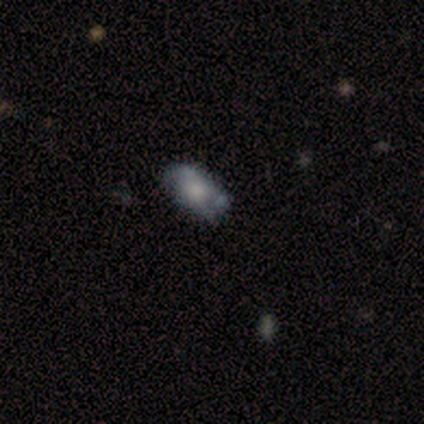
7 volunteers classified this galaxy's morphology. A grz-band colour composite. It shows a smooth galaxy with no disk features (57%) that is in between round and cigar-shaped (75%). Merging: none (50%).